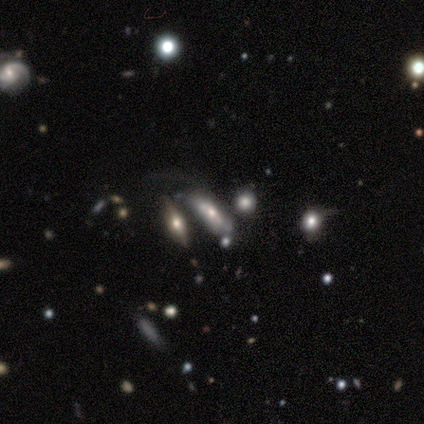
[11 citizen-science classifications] This appears to be a smooth galaxy with no disk features (82%) that is in between round and cigar-shaped (67%). Merging: none (36%).